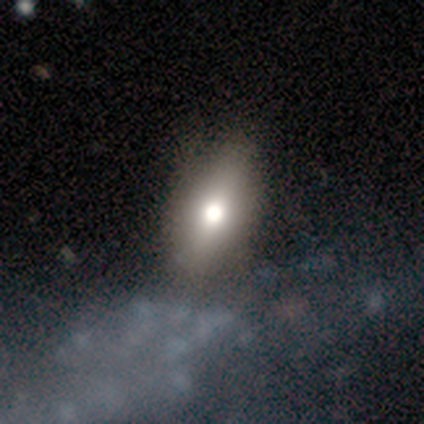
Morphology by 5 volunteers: smooth 100%, featured or disk 0%, star or artifact 0%. Down the decision tree: how rounded — in between (100%); merging — none (80%).